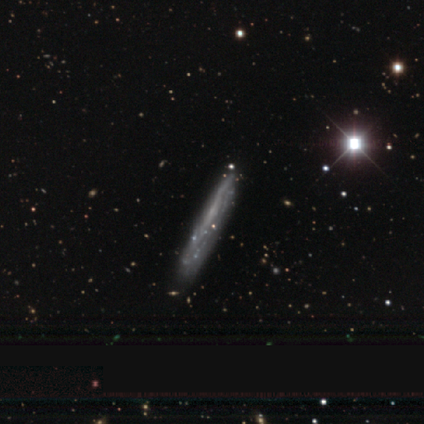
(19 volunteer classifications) Volunteers were most divided on "merging" (2-way tie): none: 44%, minor disturbance: 44%, major disturbance: 6%, merger: 6%. More confident: edge-on disk — yes (92%); edge-on bulge — none (91%); smooth or featured — featured or disk (63%).